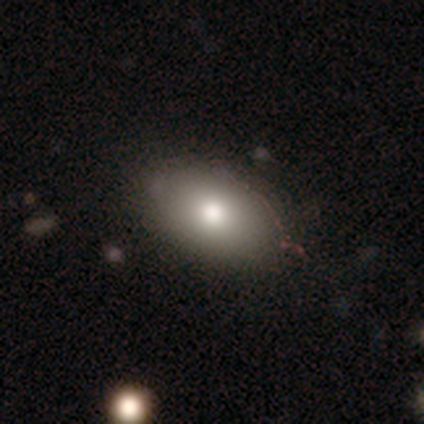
Smooth or featured? 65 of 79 (82%) said smooth. How rounded? 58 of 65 (89%) said in between. Merging? 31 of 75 (41%) said none.